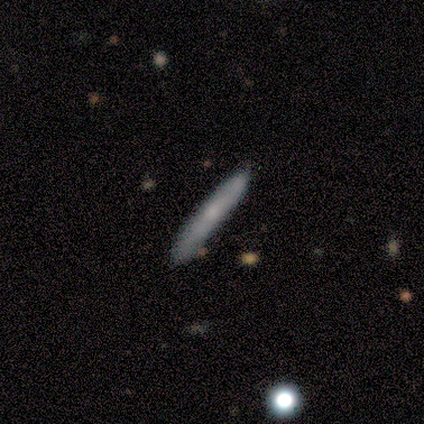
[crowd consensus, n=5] This appears to be a smooth galaxy with no disk features (40%, tied with featured or disk) that is cigar-shaped (100%). Merging: none (100%).